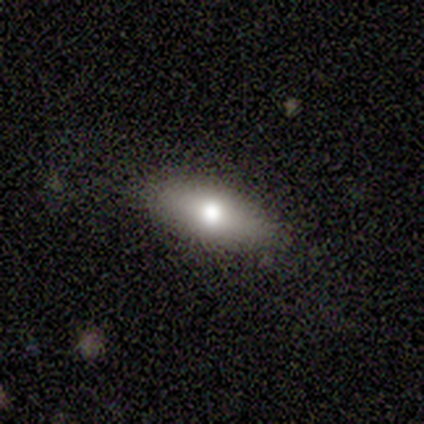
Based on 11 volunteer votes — Smooth or featured: smooth — 73% (featured or disk — 27%)
How rounded: in between — 88% (cigar-shaped — 12%)
Merging: none — 82% (major disturbance — 18%)